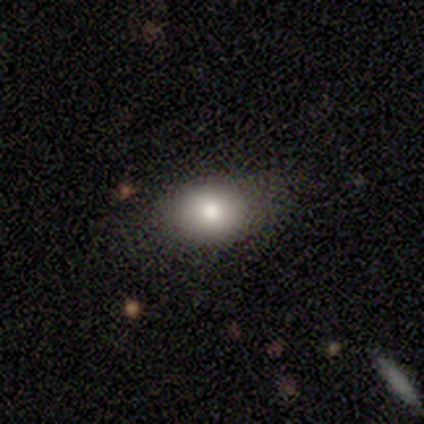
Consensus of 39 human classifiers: Q: Smooth or featured?
A: smooth (82%); runner-up: featured or disk (13%)
Q: How rounded?
A: in between (72%); runner-up: round (28%)
Q: Merging?
A: none (76%); runner-up: minor disturbance (19%)